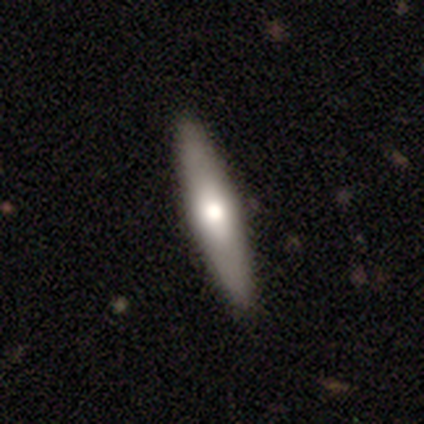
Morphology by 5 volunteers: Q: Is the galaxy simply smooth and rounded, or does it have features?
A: featured or disk — 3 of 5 (60%).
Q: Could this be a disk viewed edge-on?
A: yes — 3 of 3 (100%).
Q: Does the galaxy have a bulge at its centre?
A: rounded — 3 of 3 (100%).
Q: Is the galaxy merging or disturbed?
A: none — 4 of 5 (80%).